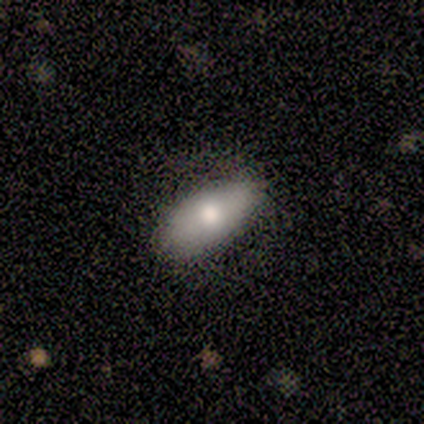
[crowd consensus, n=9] Volunteers were most divided on "smooth or featured" (2-way tie): smooth: 44%, featured or disk: 44%, star or artifact: 11%. More confident: how rounded — in between (100%); merging — none (88%).